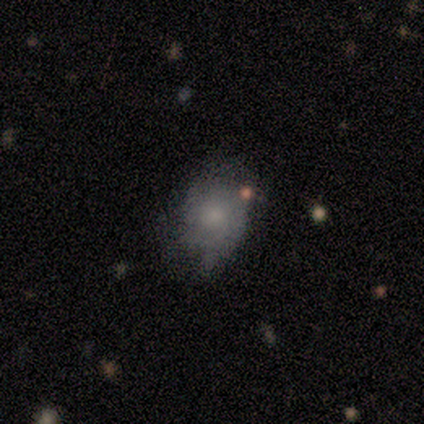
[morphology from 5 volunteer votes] Smooth or featured? smooth (100%)
How rounded? in between (60%)
Merging? none (60%)